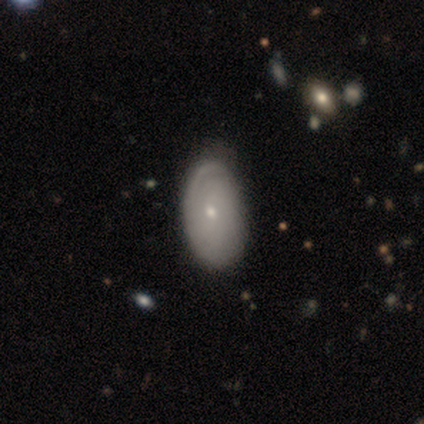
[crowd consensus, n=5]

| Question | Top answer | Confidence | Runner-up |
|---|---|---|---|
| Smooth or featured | smooth | 40% | tied: featured or disk (40%) |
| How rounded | in between | 50% | tied: cigar-shaped (50%) |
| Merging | minor disturbance | 50% | none (25%) |